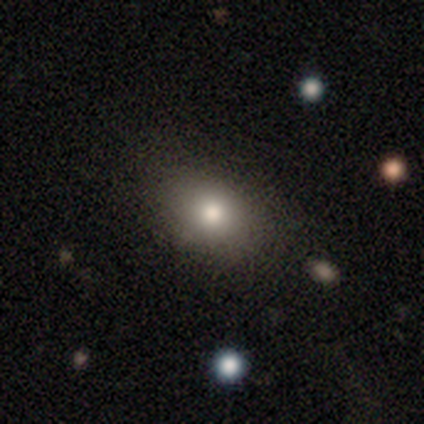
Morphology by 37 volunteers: smooth_or_featured: smooth (p=0.70) [alt: featured or disk p=0.19]
how_rounded: in between (p=0.81) [alt: round p=0.19]
merging: none (p=0.70) [alt: minor disturbance p=0.18]